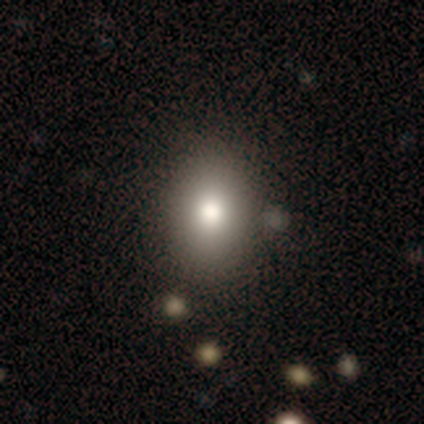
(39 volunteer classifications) Smooth or featured: smooth — 87% (featured or disk — 8%)
How rounded: in between — 82% (round — 18%)
Merging: none — 43% (merger — 8%)